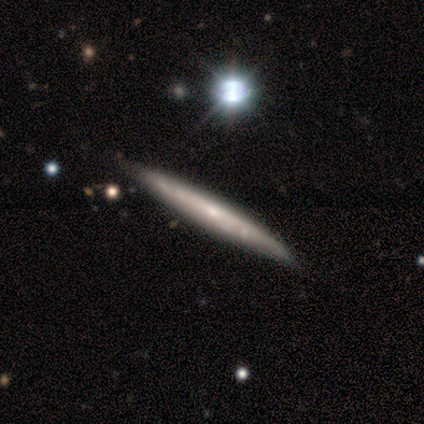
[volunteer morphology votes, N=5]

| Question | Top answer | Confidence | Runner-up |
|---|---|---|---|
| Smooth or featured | featured or disk | 60% | smooth (40%) |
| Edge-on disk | yes | 100% | — |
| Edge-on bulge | none | 67% | rounded (33%) |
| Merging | none | 60% | minor disturbance (20%) |